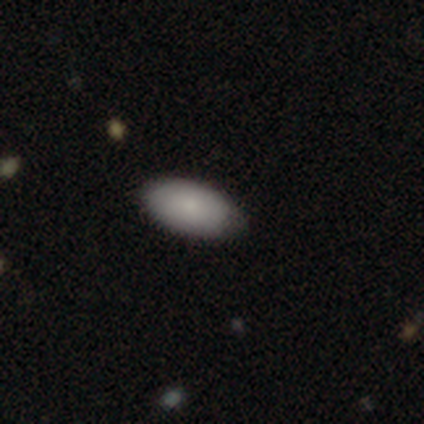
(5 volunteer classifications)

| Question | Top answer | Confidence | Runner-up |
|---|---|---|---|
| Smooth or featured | smooth | 100% | — |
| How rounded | in between | 100% | — |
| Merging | none | 100% | — |